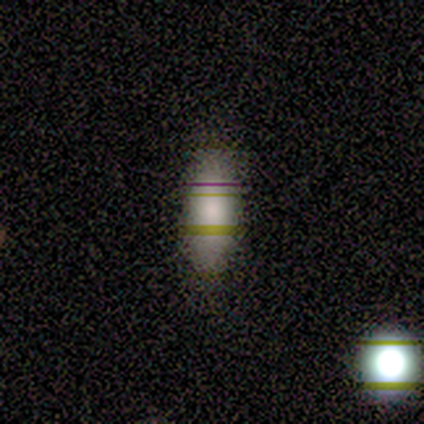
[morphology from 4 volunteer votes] Overall: smooth (50%; featured or disk 25%). How rounded: in between (50%, tied with cigar-shaped). Merging: none (67%; merger 33%).